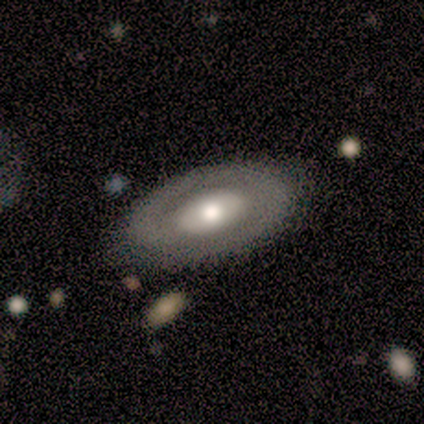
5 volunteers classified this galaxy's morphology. smooth-or-featured: featured or disk: 60% | smooth: 40% | star or artifact: 0%
  disk-edge-on: no: 100% | yes: 0%
    bar: no: 67% | strong: 33% | weak: 0%
    has-spiral-arms: no: 100% | yes: 0%
    bulge-size: large: 67% | moderate: 33% | dominant: 0% | small: 0% | none: 0%
  merging: none: 100% | minor disturbance: 0% | major disturbance: 0% | merger: 0%